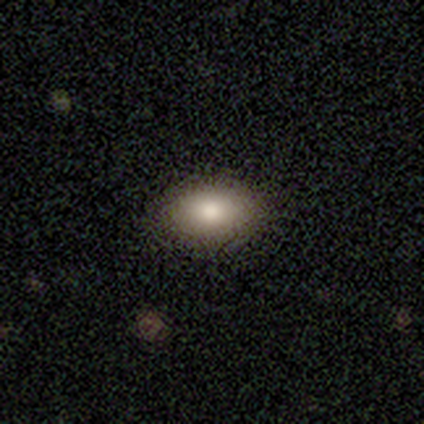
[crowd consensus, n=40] Smooth or featured? smooth (85%)
How rounded? in between (88%)
Merging? none (89%)